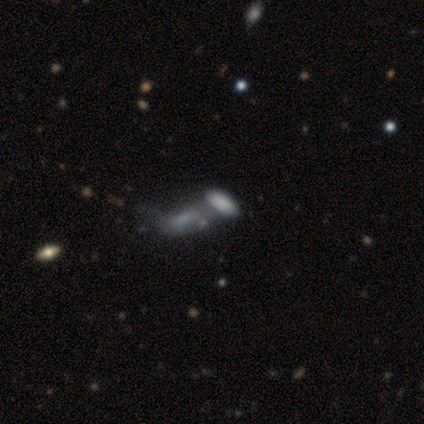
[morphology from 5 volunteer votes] A smooth galaxy with no disk features (60%) that is in between round and cigar-shaped (100%). Merging: merger (50%).